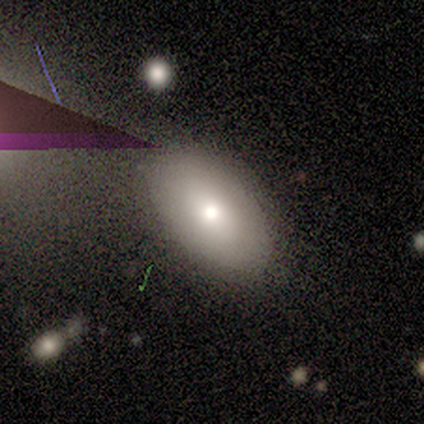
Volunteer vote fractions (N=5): smooth-or-featured: smooth: 100% | featured or disk: 0% | star or artifact: 0%
  how-rounded: in between: 100% | round: 0% | cigar-shaped: 0%
  merging: none: 60% | minor disturbance: 20% | major disturbance: 20% | merger: 0%